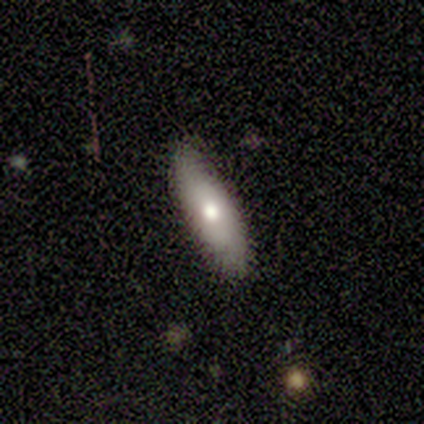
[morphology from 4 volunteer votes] smooth-or-featured: smooth: 75% | featured or disk: 25% | star or artifact: 0%
  how-rounded: in between: 67% | cigar-shaped: 33% | round: 0%
  merging: none: 75% | minor disturbance: 25% | major disturbance: 0% | merger: 0%